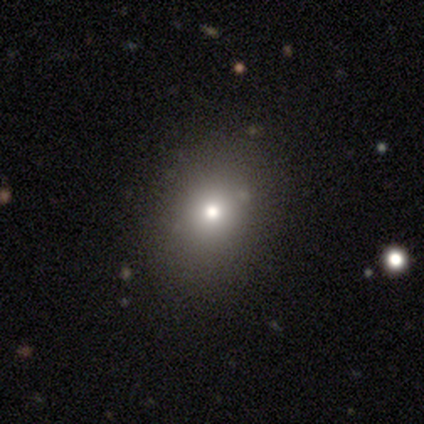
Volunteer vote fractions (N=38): This is likely a smooth galaxy (79%). How rounded: likely round (63%). Merging: clearly none (88%).